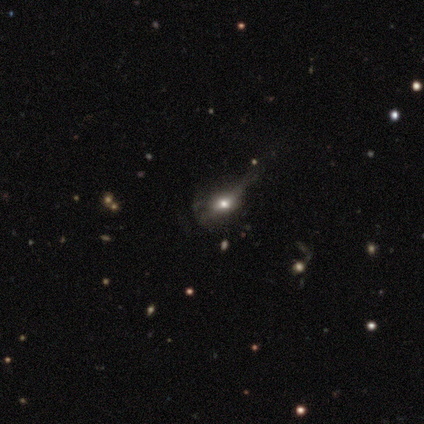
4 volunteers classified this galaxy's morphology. Overall: smooth (50%; featured or disk 25%). How rounded: round (100%). Merging: none (33%, tied with minor disturbance and major disturbance).